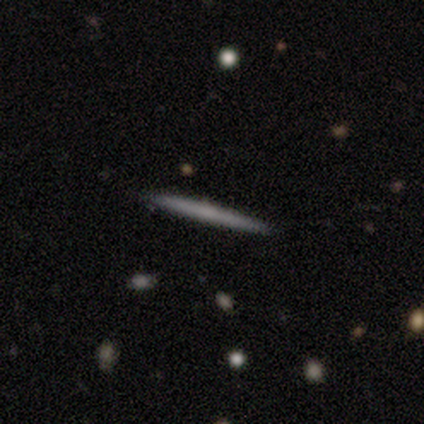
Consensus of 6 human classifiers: A smooth galaxy with no disk features (50%, tied with featured or disk) that is cigar-shaped (100%). Merging: none (100%).